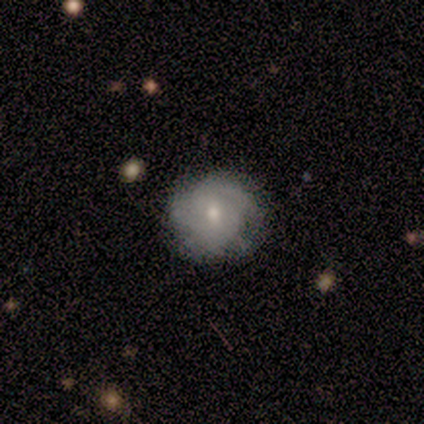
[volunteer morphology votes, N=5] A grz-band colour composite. It shows a smooth galaxy with no disk features (40%, tied with featured or disk) that is round (100%). Merging: none (100%).